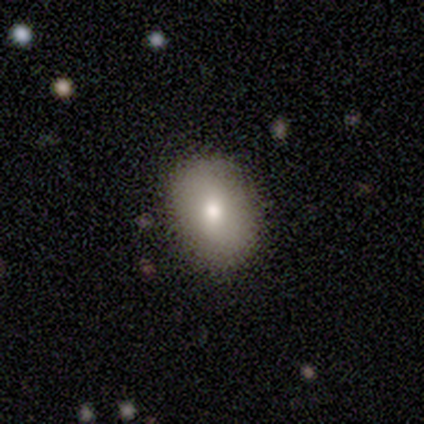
Q: Smooth or featured?
A: smooth (67%); runner-up: featured or disk (22%)
Q: How rounded?
A: in between (83%); runner-up: round (17%)
Q: Merging?
A: none (88%); runner-up: minor disturbance (12%)